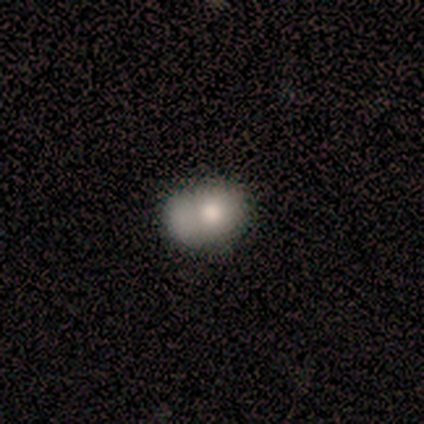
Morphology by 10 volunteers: A smooth galaxy with no disk features (70%) that is round (57%).

Vote fractions:
- Smooth or featured? smooth: 70% / featured or disk: 20% / star or artifact: 10%
- How rounded? round: 57% / in between: 43% / cigar-shaped: 0%
- Merging? merger: 67% / none: 11% / minor disturbance: 11% / major disturbance: 11%